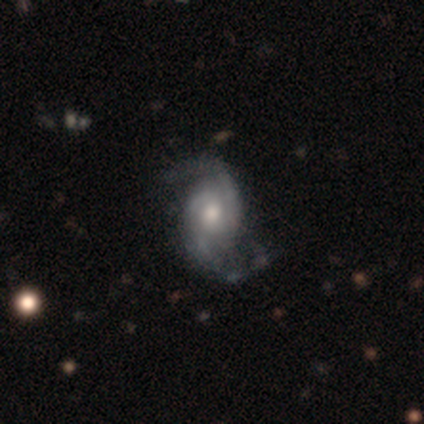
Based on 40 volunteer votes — Smooth or featured? 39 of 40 (98%) said featured or disk. Edge-on disk? 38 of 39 (97%) said no. Bar? 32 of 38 (84%) said no. Spiral arms? 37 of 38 (97%) said yes. Spiral winding? 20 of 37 (54%) said medium. Spiral arm count? 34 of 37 (92%) said 2. Bulge size? 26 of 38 (68%) said moderate. Merging? 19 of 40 (48%) said none.